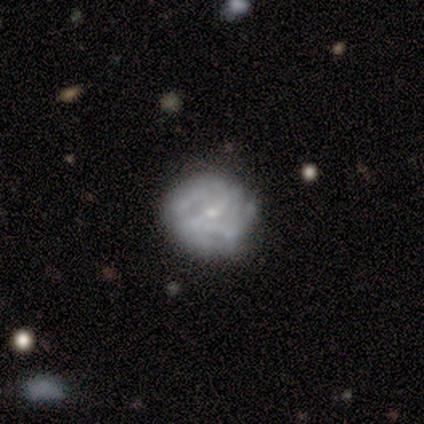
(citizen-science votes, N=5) Smooth or featured? smooth (40%, tied with featured or disk)
How rounded? round (100%)
Merging? none (50%, tied with major disturbance)